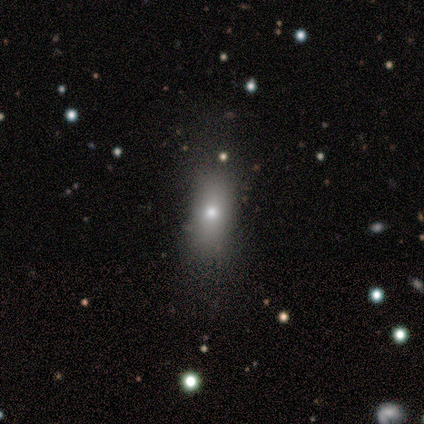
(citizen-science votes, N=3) This is likely a smooth galaxy (67%). How rounded: clearly in between (100%). Merging: likely none (67%).